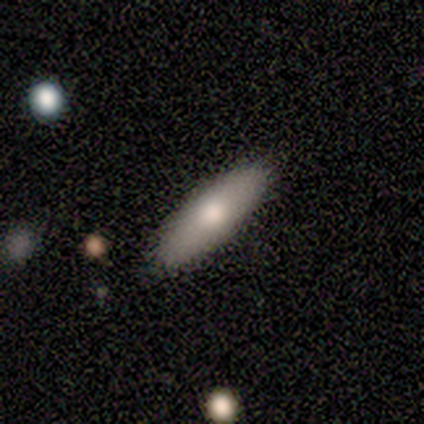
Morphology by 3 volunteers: Q: Smooth or featured?
A: smooth (33%); tied with: featured or disk (33%); star or artifact (33%)
Q: How rounded?
A: cigar-shaped (100%)
Q: Merging?
A: none (50%); tied with: minor disturbance (50%)